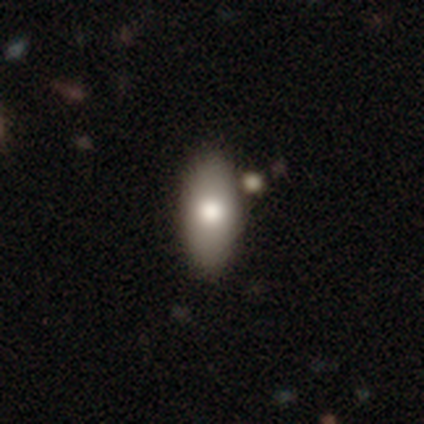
Volunteers were most divided on "merging": none: 42%, merger: 12%, minor disturbance: 5%, major disturbance: 0%. More confident: how rounded — in between (92%); smooth or featured — smooth (83%).